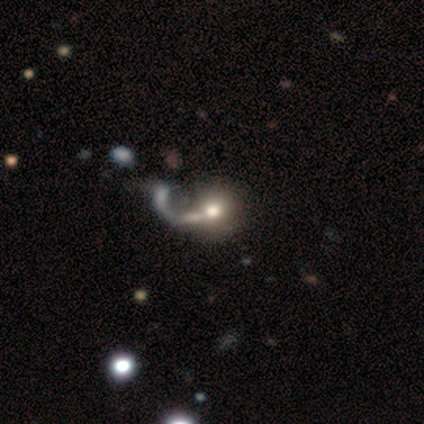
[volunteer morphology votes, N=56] This is marginally a smooth galaxy (43%). How rounded: clearly round (88%). Merging: possibly merger (47%).